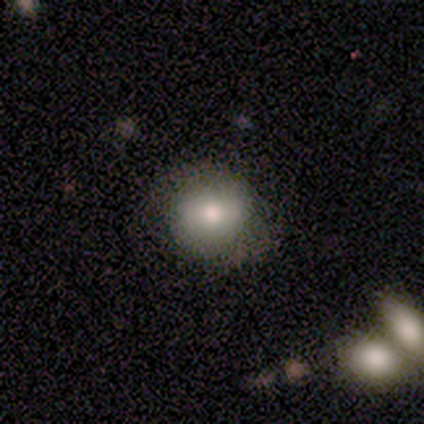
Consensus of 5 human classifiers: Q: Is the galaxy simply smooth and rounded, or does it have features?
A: smooth — 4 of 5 (80%).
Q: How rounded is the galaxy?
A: round — 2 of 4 (50%, tied with in between).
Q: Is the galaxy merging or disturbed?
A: none — 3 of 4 (75%).